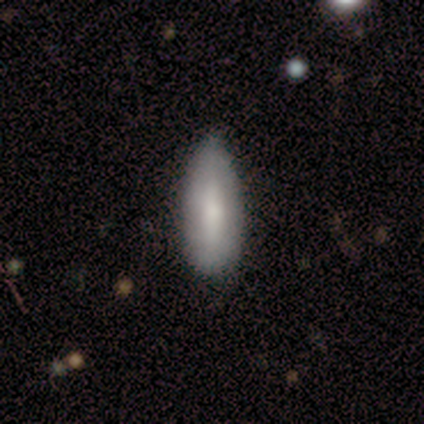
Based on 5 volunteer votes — smooth 80%, featured or disk 20%, star or artifact 0%. Down the decision tree: how rounded — in between (100%); merging — minor disturbance (60%).